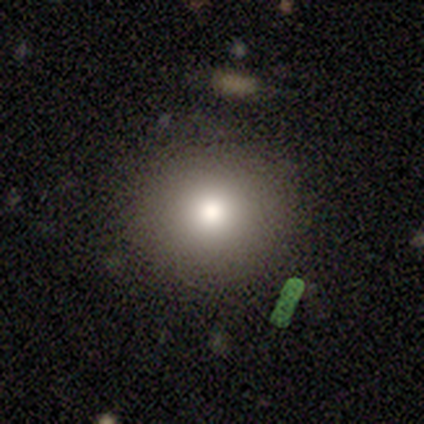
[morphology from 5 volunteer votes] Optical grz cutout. It shows a smooth galaxy with no disk features (40%, tied with featured or disk) that is round (100%). Merging: none (75%).